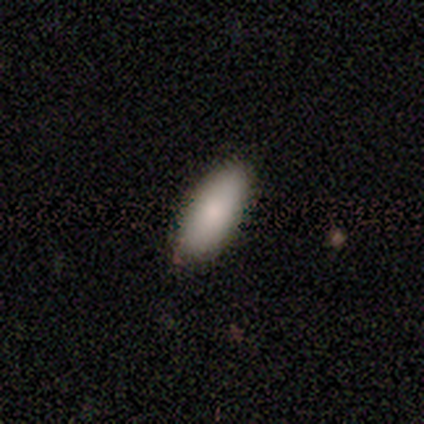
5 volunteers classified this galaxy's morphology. Smooth or featured? smooth (100%)
How rounded? in between (100%)
Merging? none (100%)